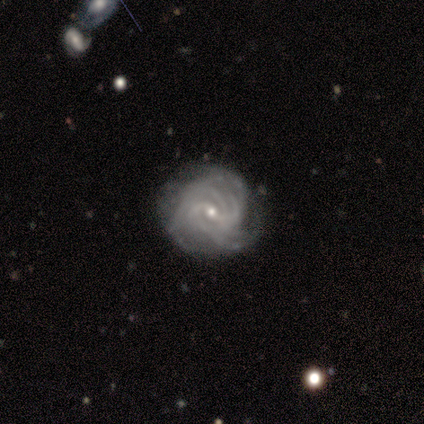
Q: Smooth or featured?
A: featured or disk (100%)
Q: Edge-on disk?
A: no (100%)
Q: Bar?
A: weak (80%); runner-up: no (20%)
Q: Spiral arms?
A: yes (100%)
Q: Spiral winding?
A: tight (60%); runner-up: medium (20%)
Q: Spiral arm count?
A: 4 (40%); runner-up: 2 (20%)
Q: Bulge size?
A: small (100%)
Q: Merging?
A: minor disturbance (60%); runner-up: none (40%)